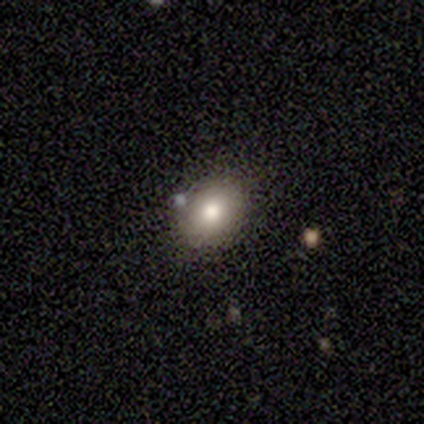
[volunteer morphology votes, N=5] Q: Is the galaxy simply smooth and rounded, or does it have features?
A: smooth — 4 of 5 (80%).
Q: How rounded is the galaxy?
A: in between — 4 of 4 (100%).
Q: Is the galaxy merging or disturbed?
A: none — 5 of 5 (100%).